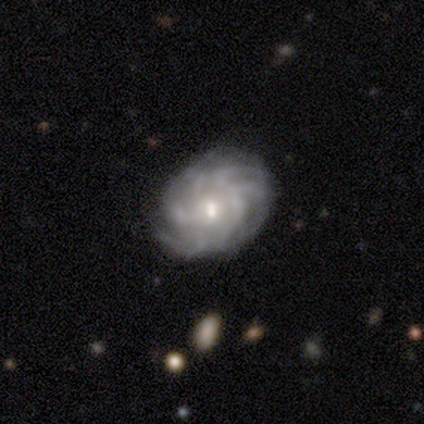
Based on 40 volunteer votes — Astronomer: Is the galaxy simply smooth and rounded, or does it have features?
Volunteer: featured or disk — 82%.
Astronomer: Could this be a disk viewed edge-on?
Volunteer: no — 94%.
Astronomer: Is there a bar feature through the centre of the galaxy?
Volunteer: no — 65%.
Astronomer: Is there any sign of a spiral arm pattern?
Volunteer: yes — 100%.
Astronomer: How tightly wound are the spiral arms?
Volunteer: tight — 58%.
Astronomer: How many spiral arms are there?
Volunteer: more than 4 — 61% (runner-up: can't tell, 39%).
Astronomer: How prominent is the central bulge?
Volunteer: moderate — 48% (runner-up: small, 42%).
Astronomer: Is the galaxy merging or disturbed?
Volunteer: none — 74%.